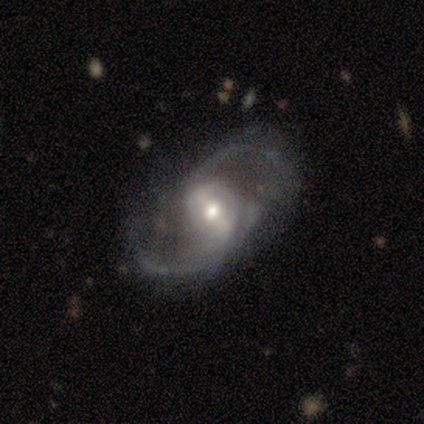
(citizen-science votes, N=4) Volunteers were most divided on "merging" (3-way tie): none: 33%, minor disturbance: 33%, merger: 33%, major disturbance: 0%. More confident: edge-on disk — no (100%); spiral arms — yes (100%); spiral arm count — 2 (100%); smooth or featured — featured or disk (75%); bar — weak (67%); spiral winding — medium (67%); bulge size — moderate (67%).